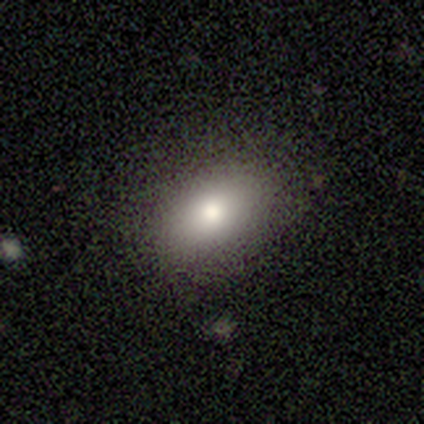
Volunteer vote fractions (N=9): smooth_or_featured: smooth (p=1.00)
how_rounded: in between (p=1.00)
merging: none (p=1.00)